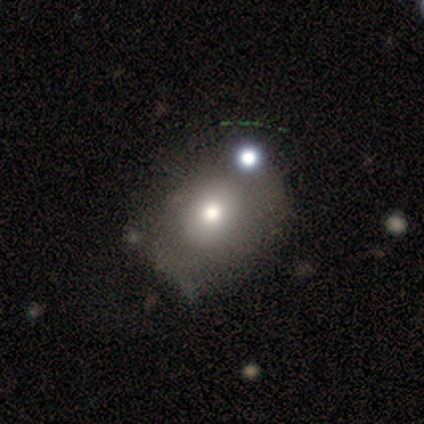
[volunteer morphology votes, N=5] A smooth galaxy with no disk features (40%, tied with star or artifact) that is round (50%, tied with in between).

Vote fractions:
- Smooth or featured? smooth: 40% (tied) / star or artifact: 40% (tied) / featured or disk: 20%
- How rounded? round: 50% (tied) / in between: 50% (tied) / cigar-shaped: 0%
- Merging? none: 33% (tied) / minor disturbance: 33% (tied) / major disturbance: 33% (tied) / merger: 0%